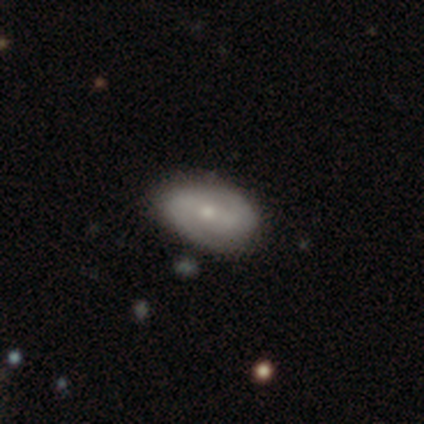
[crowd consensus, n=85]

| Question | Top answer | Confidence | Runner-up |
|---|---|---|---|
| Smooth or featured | featured or disk | 68% | smooth (27%) |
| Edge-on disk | no | 97% | yes (3%) |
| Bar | no | 48% | weak (27%) |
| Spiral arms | yes | 84% | no (16%) |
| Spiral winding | medium | 49% | tight (28%) |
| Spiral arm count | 2 | 94% | can't tell (4%) |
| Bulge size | small | 66% | moderate (27%) |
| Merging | none | 81% | minor disturbance (14%) |